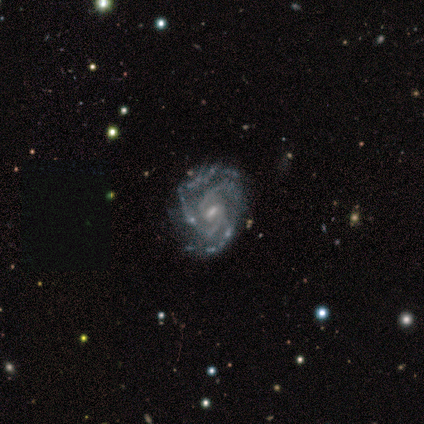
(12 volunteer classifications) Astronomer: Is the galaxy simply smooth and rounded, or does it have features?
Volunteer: featured or disk — 75%.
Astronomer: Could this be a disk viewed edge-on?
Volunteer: no — 89%.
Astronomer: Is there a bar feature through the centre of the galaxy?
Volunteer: weak — 38%, tied with no at 38%.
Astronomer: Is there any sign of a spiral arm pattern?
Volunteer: yes — 100%.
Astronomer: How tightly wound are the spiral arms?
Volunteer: tight — 50%, tied with medium at 50%.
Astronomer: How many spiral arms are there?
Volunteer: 2 — 50%.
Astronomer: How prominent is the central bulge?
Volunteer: small — 62%.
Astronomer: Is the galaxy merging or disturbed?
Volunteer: none — 56%.